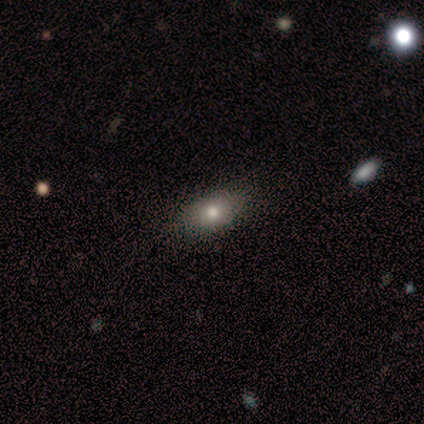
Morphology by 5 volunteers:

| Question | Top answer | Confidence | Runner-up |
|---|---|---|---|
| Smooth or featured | smooth | 100% | — |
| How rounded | in between | 100% | — |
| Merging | none | 80% | minor disturbance (20%) |